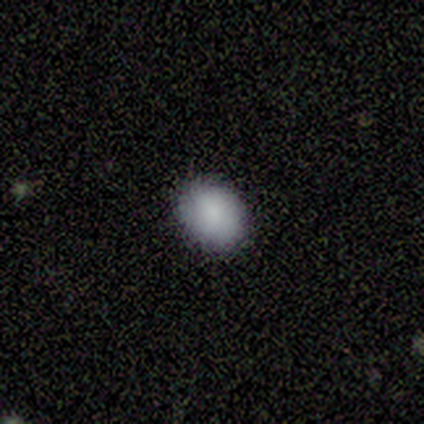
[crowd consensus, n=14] smooth-or-featured: smooth: 100% | featured or disk: 0% | star or artifact: 0%
  how-rounded: in between: 64% | round: 36% | cigar-shaped: 0%
  merging: none: 93% | minor disturbance: 7% | major disturbance: 0% | merger: 0%